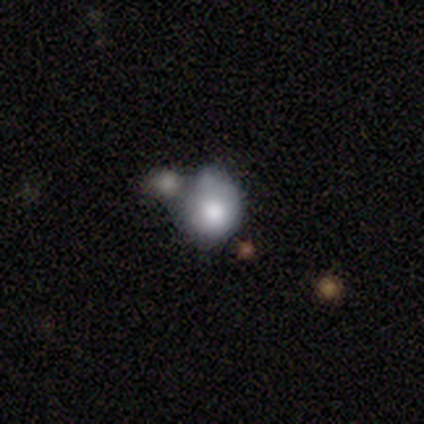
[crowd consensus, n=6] Overall: smooth (50%; featured or disk 33%). How rounded: round (67%; in between 33%). Merging: none (40%, tied with merger).